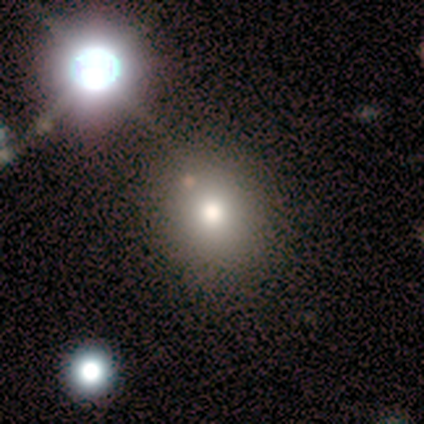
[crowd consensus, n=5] smooth-or-featured: smooth: 80% | featured or disk: 20% | star or artifact: 0%
  how-rounded: round: 75% | in between: 25% | cigar-shaped: 0%
  merging: none: 80% | minor disturbance: 20% | major disturbance: 0% | merger: 0%